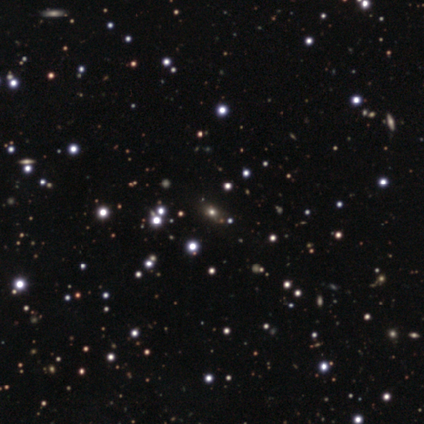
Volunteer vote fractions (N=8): star or artifact 75%, smooth 25%, featured or disk 0%.